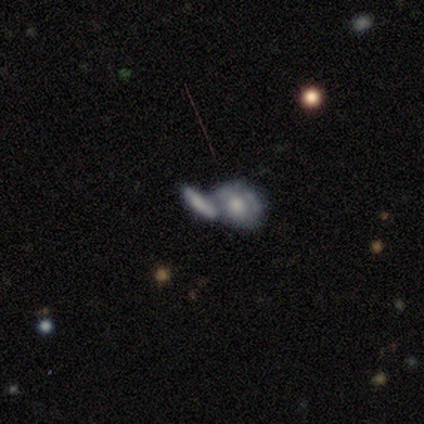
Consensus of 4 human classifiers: Smooth or featured? smooth (50%, tied with featured or disk)
How rounded? in between (100%)
Merging? merger (75%)